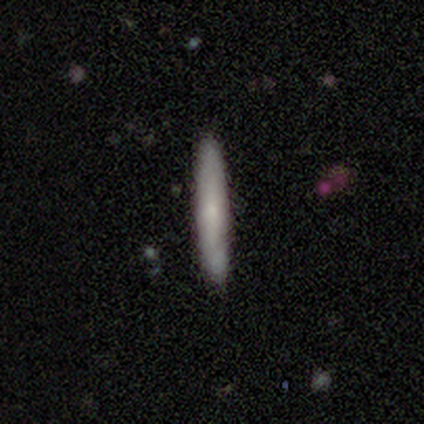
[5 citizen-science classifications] Smooth or featured? smooth (100%)
How rounded? cigar-shaped (80%)
Merging? none (100%)